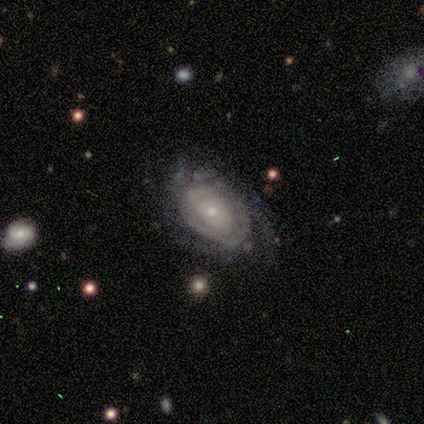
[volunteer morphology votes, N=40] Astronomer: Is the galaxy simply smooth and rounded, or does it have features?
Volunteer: featured or disk — 78%.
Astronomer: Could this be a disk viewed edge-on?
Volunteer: no — 100%.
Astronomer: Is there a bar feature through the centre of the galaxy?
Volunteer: no — 87%.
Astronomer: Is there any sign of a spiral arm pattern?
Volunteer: yes — 87%.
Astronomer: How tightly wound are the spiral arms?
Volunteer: tight — 81%.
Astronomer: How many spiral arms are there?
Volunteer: can't tell — 70%.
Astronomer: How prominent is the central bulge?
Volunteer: small — 87%.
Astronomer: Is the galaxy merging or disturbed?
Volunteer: none — 67%.